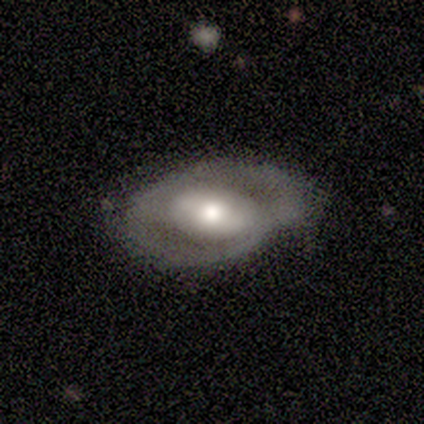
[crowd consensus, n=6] Smooth or featured?
  - smooth: 50% * (tied)
  - featured or disk: 50% * (tied)
  - star or artifact: 0%
How rounded?
  - round: 67% *
  - in between: 33%
  - cigar-shaped: 0%
Merging?
  - none: 83% *
  - major disturbance: 17%
  - minor disturbance: 0%
  - merger: 0%